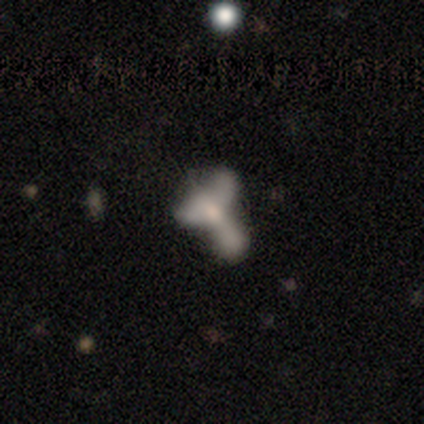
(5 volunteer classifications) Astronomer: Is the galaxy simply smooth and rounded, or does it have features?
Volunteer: featured or disk — 40%, tied with star or artifact at 40%.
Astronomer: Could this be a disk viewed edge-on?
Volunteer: no — 100%.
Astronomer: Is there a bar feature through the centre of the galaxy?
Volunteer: no — 100%.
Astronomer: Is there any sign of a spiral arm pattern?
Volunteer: yes — 50%, tied with no at 50%.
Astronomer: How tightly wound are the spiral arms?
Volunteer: loose — 100%.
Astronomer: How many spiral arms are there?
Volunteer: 3 — 100%.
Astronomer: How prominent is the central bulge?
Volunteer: moderate — 50%, tied with none at 50%.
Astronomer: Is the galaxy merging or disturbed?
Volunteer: none — 33%, tied with minor disturbance and major disturbance at 33%.